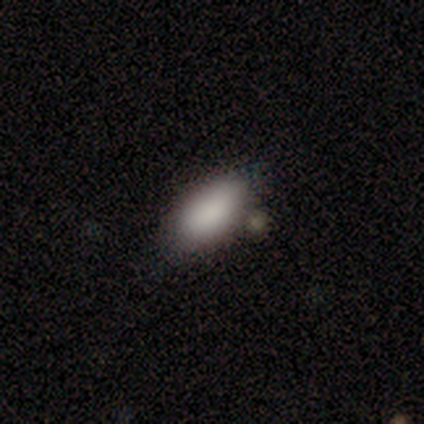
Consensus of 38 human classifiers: Smooth or featured? smooth (92%)
How rounded? in between (97%)
Merging? none (77%)